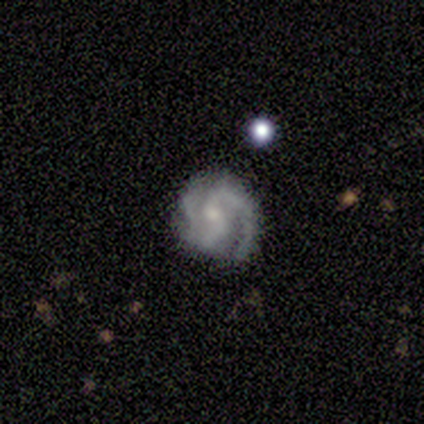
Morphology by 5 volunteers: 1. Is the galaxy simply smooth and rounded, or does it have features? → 100% featured or disk, 0% smooth, 0% star or artifact.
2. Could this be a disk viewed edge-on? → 100% no, 0% yes.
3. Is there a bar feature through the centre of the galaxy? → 80% no, 20% strong, 0% weak.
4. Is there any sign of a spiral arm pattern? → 100% yes, 0% no.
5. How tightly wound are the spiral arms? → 60% medium, 20% tight, 20% loose.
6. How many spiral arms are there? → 40% 2 (tied), 40% 3 (tied), 20% 1, 0% 4, 0% more than 4, 0% can't tell.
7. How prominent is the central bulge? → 80% small, 20% moderate, 0% dominant, 0% large, 0% none.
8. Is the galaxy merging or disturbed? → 80% none, 20% minor disturbance, 0% major disturbance, 0% merger.